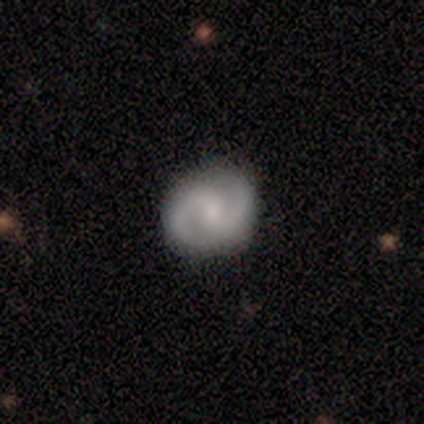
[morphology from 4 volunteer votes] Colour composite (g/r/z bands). It shows a featured or disk galaxy (100%) with no bar (100%), 2 (100%) tight (75%) spiral arms (100%) and a moderate central bulge (50%, tied with small). Merging: none (75%).